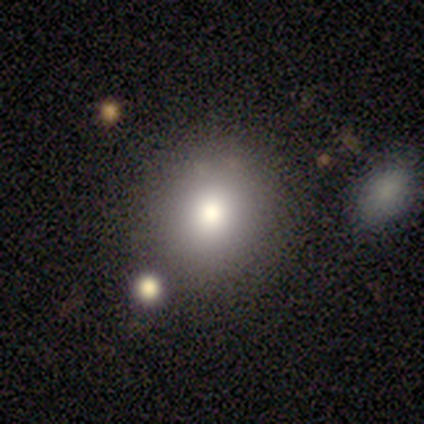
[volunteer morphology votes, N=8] smooth_or_featured: smooth (p=1.00)
how_rounded: round (p=1.00)
merging: none (p=1.00)